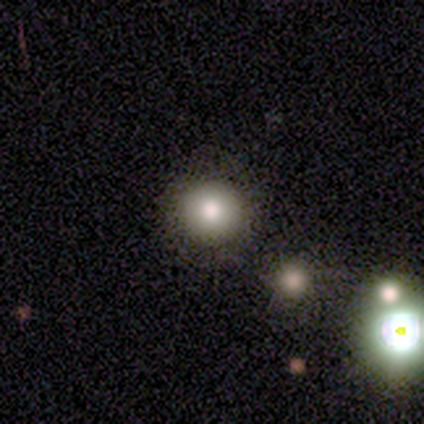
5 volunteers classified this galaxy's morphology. This is clearly a smooth galaxy (80%). How rounded: clearly round (100%). Merging: clearly none (100%).